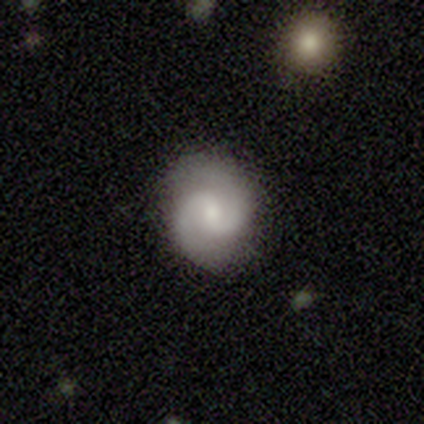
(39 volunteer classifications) Smooth or featured? featured or disk (95%)
Edge-on disk? no (97%)
Bar? weak (58%)
Spiral arms? yes (94%)
Spiral winding? medium (68%)
Spiral arm count? 2 (100%)
Bulge size? small (58%)
Merging? none (87%)